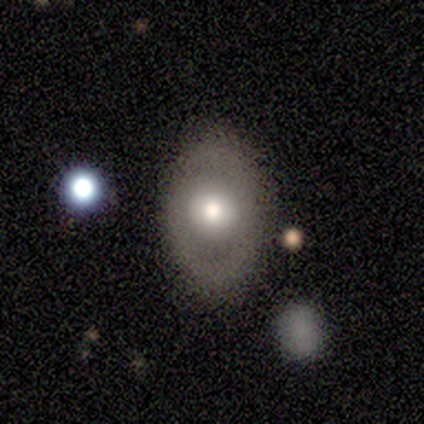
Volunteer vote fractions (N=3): Smooth or featured?
  - smooth: 67% *
  - featured or disk: 33%
  - star or artifact: 0%
How rounded?
  - round: 50% * (tied)
  - in between: 50% * (tied)
  - cigar-shaped: 0%
Merging?
  - none: 67% *
  - major disturbance: 33%
  - minor disturbance: 0%
  - merger: 0%